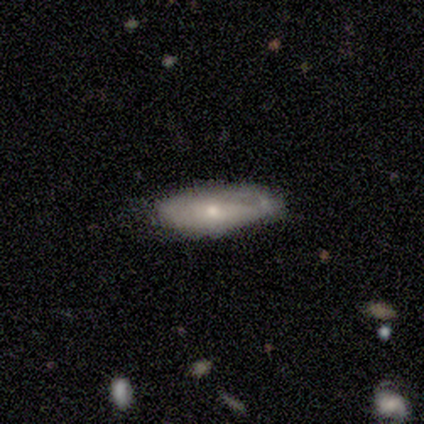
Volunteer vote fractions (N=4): Morphology: type=smooth (50%, tied with featured or disk); roundness=in between (50%, tied with cigar-shaped); merging=minor disturbance (75%).